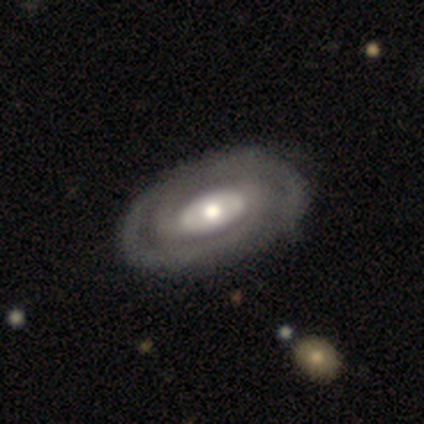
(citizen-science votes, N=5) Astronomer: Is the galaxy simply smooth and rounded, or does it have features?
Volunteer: featured or disk — 80%.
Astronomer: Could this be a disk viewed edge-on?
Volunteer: no — 100%.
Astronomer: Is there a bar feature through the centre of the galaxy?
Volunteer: weak — 50%.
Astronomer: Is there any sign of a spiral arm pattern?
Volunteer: yes — 100%.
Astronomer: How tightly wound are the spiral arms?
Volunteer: medium — 75%.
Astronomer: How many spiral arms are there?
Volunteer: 2 — 75%.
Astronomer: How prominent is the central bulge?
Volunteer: small — 50%.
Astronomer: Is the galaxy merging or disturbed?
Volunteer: none — 75%.